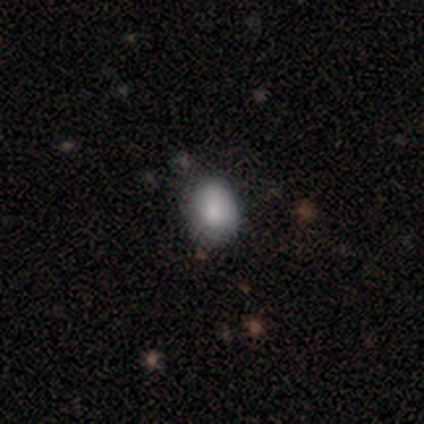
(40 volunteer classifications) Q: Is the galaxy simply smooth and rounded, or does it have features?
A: smooth — 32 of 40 (80%).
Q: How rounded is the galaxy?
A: in between — 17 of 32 (53%).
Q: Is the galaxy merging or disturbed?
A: none — 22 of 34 (65%).